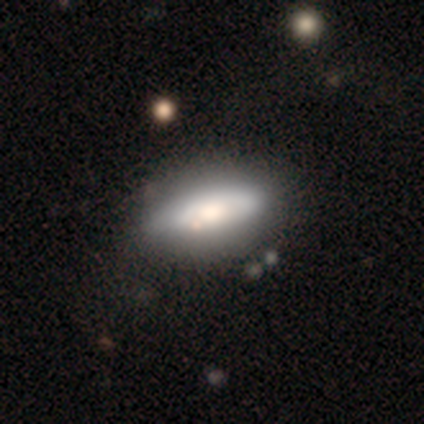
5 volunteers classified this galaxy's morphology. type=smooth (60%); roundness=in between (100%); merging=none (100%).